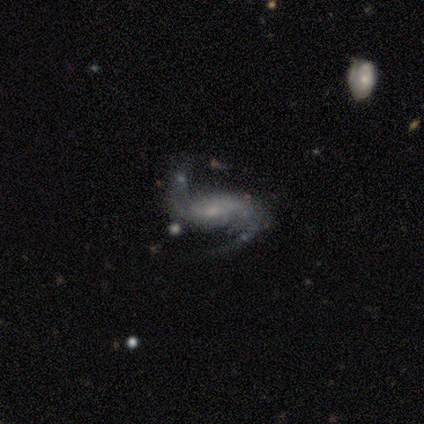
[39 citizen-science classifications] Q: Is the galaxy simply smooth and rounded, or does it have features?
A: featured or disk — 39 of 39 (100%).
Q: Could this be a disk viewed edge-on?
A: no — 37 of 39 (95%).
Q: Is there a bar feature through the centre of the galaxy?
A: weak — 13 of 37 (35%).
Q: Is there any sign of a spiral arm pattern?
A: yes — 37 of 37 (100%).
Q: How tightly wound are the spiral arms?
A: loose — 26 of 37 (70%).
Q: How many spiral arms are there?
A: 2 — 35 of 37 (95%).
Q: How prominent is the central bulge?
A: small — 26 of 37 (70%).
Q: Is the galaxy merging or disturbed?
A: none — 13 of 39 (33%).